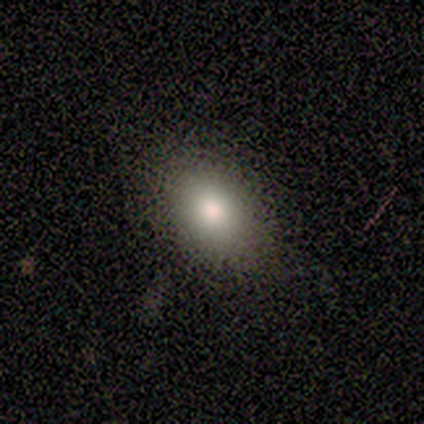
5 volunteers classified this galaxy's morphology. Smooth or featured? smooth (40%, tied with featured or disk)
How rounded? in between (100%)
Merging? none (100%)